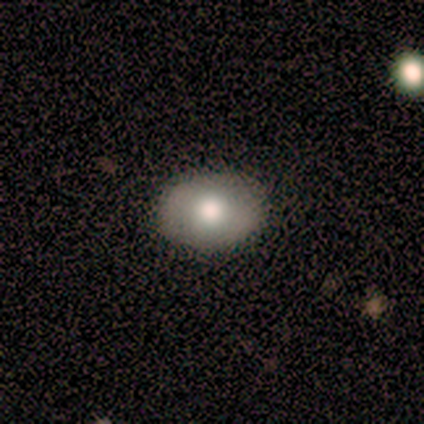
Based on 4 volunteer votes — smooth_or_featured: smooth (p=0.50) [alt: featured or disk p=0.25]
how_rounded: in between (p=1.00)
merging: none (p=0.67) [alt: major disturbance p=0.33]